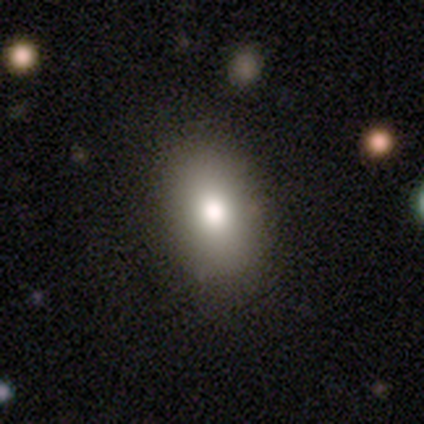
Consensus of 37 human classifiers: Smooth or featured? 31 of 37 (84%) said smooth. How rounded? 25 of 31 (81%) said in between. Merging? 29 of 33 (88%) said none.